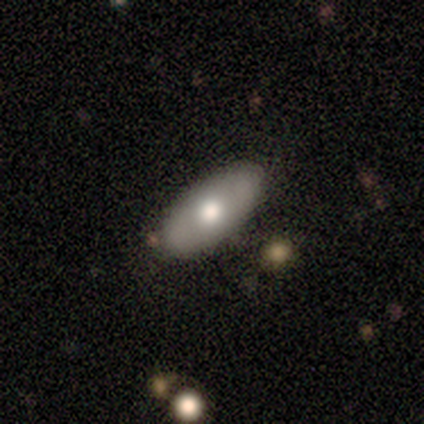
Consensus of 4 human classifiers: Smooth or featured? 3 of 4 (75%) said featured or disk. Edge-on disk? 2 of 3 (67%) said no. Bar? 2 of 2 (100%) said no. Spiral arms? 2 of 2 (100%) said no. Bulge size? 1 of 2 (50%, tied with moderate) said large. Merging? 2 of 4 (50%, tied with minor disturbance) said none.